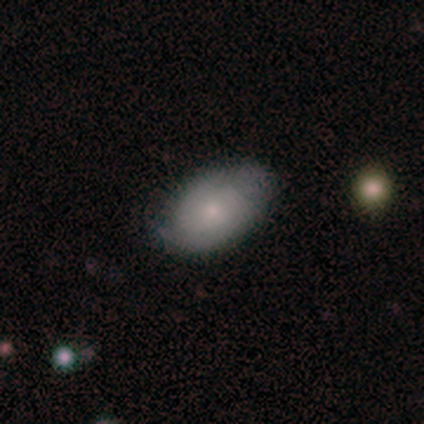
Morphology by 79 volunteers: A smooth galaxy with no disk features (59%) that is in between round and cigar-shaped (98%).

Vote fractions:
- Smooth or featured? smooth: 59% / featured or disk: 34% / star or artifact: 6%
- How rounded? in between: 98% / round: 2% / cigar-shaped: 0%
- Merging? none: 31% / minor disturbance: 15% / major disturbance: 5% / merger: 4%